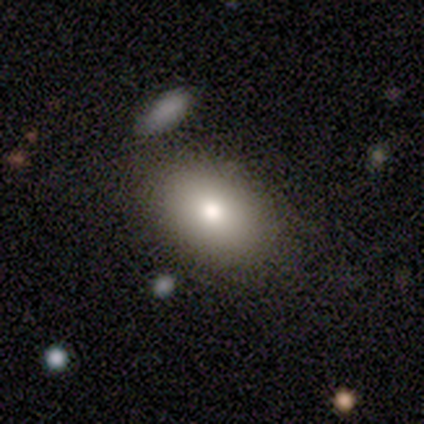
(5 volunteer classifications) A smooth galaxy with no disk features (60%) that is in between round and cigar-shaped (67%).

Vote fractions:
- Smooth or featured? smooth: 60% / featured or disk: 20% / star or artifact: 20%
- How rounded? in between: 67% / round: 33% / cigar-shaped: 0%
- Merging? none: 100% / minor disturbance: 0% / major disturbance: 0% / merger: 0%